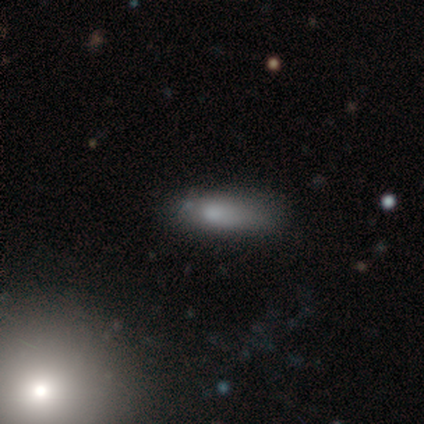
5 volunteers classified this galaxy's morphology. This is likely a smooth galaxy (60%). How rounded: clearly in between (100%). Merging: clearly none (100%).